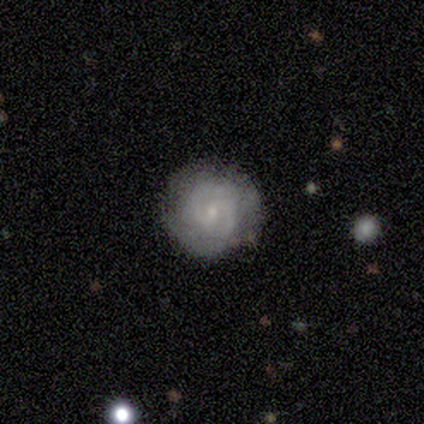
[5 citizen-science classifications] Smooth or featured?
  - featured or disk: 80% *
  - smooth: 20%
  - star or artifact: 0%
Edge-on disk?
  - no: 100% *
  - yes: 0%
Bar?
  - no: 75% *
  - weak: 25%
  - strong: 0%
Spiral arms?
  - yes: 75% *
  - no: 25%
Spiral winding?
  - medium: 67% *
  - tight: 33%
  - loose: 0%
Spiral arm count?
  - 2: 100% *
  - 1: 0%
  - 3: 0%
  - 4: 0%
  - more than 4: 0%
  - can't tell: 0%
Bulge size?
  - small: 75% *
  - none: 25%
  - dominant: 0%
  - large: 0%
  - moderate: 0%
Merging?
  - none: 100% *
  - minor disturbance: 0%
  - major disturbance: 0%
  - merger: 0%